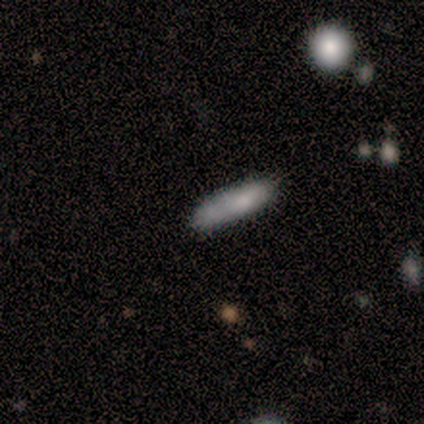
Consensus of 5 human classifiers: smooth-or-featured: smooth: 80% | featured or disk: 20% | star or artifact: 0%
  how-rounded: cigar-shaped: 100% | round: 0% | in between: 0%
  merging: none: 80% | minor disturbance: 20% | major disturbance: 0% | merger: 0%